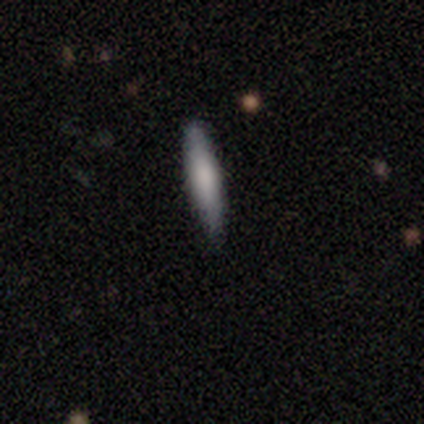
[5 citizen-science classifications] A smooth galaxy with no disk features (100%) that is cigar-shaped (100%).

Vote fractions:
- Smooth or featured? smooth: 100% / featured or disk: 0% / star or artifact: 0%
- How rounded? cigar-shaped: 100% / round: 0% / in between: 0%
- Merging? none: 100% / minor disturbance: 0% / major disturbance: 0% / merger: 0%